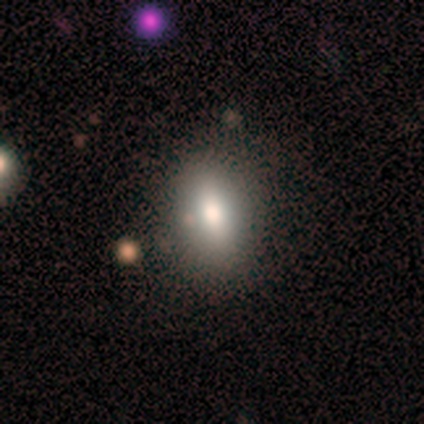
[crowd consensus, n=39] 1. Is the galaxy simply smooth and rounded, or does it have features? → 69% smooth, 18% featured or disk, 13% star or artifact.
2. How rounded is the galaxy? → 93% in between, 7% round, 0% cigar-shaped.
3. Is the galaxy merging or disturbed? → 94% none, 3% minor disturbance, 3% merger, 0% major disturbance.